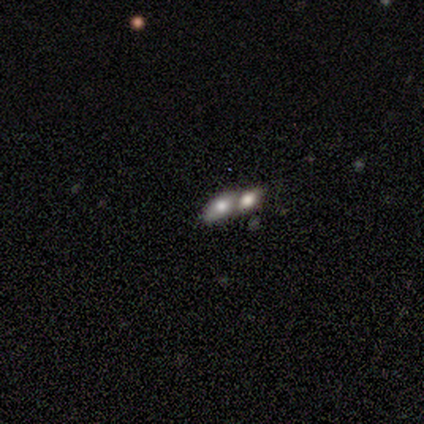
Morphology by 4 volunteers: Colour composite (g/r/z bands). It shows a smooth galaxy with no disk features (75%) that is in between round and cigar-shaped (67%). Merging: none (50%, tied with merger).